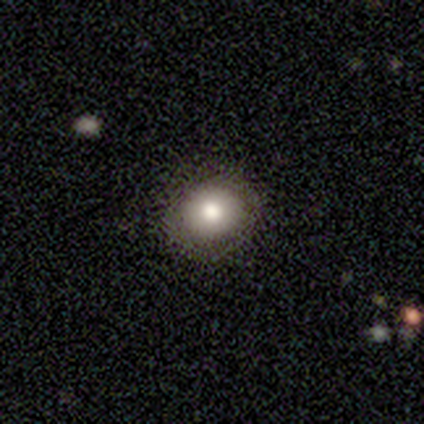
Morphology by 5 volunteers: Volunteers were most divided on "merging": none: 75%, major disturbance: 25%, minor disturbance: 0%, merger: 0%. More confident: how rounded — round (100%); smooth or featured — smooth (80%).